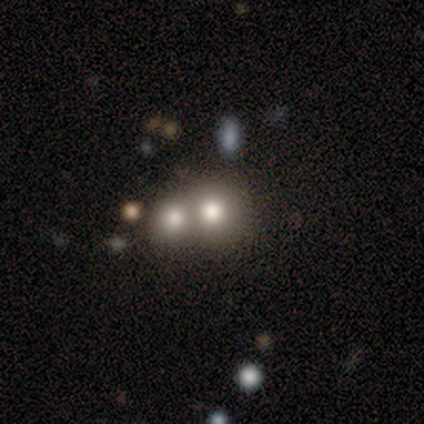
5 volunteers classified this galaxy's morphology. This appears to be a featured or disk galaxy (40%, tied with star or artifact) with no bar (100%), 4 (100%) medium (100%) spiral arms (50%, tied with no) and a large central bulge (50%, tied with none). Merging: merger (67%).